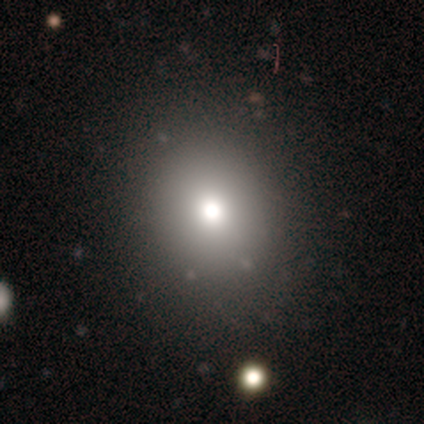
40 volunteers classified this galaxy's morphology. Smooth or featured? smooth (70%)
How rounded? round (79%)
Merging? none (65%)